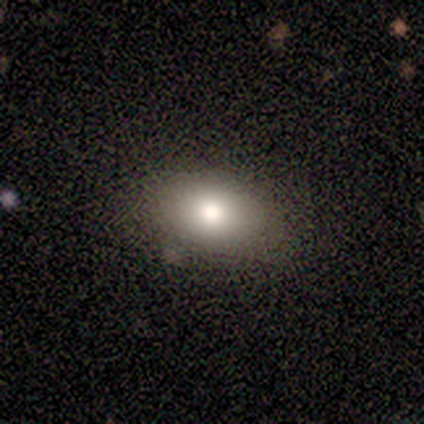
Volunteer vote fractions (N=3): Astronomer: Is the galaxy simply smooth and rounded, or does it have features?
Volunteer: featured or disk — 67%.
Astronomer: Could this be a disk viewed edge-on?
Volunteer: no — 100%.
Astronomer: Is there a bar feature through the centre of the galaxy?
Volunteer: strong — 50%, tied with no at 50%.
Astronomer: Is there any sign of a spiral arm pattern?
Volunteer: no — 100%.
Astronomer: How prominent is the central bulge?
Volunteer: large — 100%.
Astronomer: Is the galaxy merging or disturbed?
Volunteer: none — 100%.